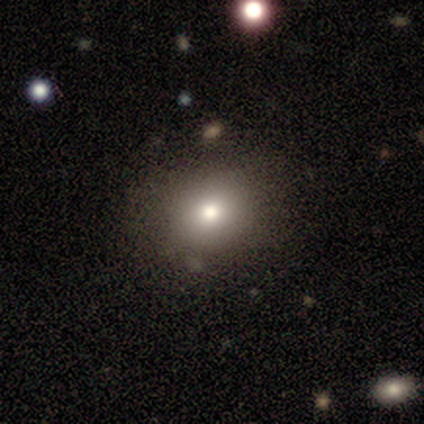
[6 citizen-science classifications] Morphology: type=smooth (83%); roundness=round (100%); merging=none (100%).